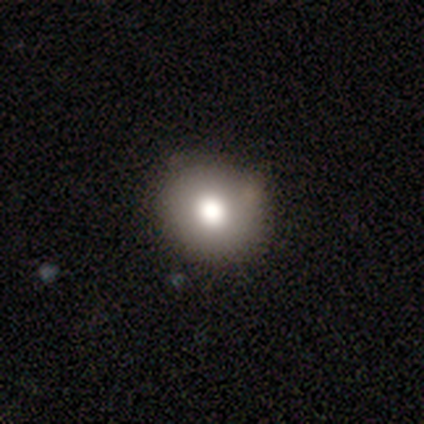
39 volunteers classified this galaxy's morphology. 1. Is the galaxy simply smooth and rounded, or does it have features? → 79% smooth, 18% featured or disk, 3% star or artifact.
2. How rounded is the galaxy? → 81% round, 19% in between, 0% cigar-shaped.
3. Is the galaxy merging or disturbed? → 87% none, 11% minor disturbance, 3% merger, 0% major disturbance.